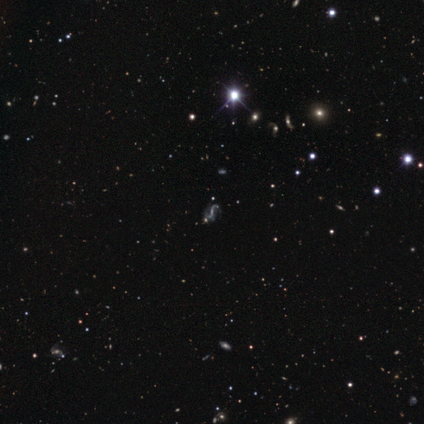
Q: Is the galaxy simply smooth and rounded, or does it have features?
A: featured or disk — 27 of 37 (73%).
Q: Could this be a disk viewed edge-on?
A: no — 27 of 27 (100%).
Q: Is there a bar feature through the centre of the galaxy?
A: weak — 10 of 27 (37%).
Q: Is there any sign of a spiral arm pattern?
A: yes — 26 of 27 (96%).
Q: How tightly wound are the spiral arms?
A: loose — 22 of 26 (85%).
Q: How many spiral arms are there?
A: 2 — 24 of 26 (92%).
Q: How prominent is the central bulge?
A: small — 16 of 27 (59%).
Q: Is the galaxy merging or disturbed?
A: none — 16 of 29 (55%).